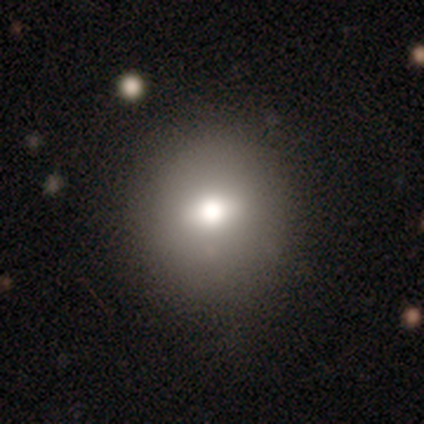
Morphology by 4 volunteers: Smooth or featured?
  - smooth: 75% *
  - star or artifact: 25%
  - featured or disk: 0%
How rounded?
  - round: 67% *
  - in between: 33%
  - cigar-shaped: 0%
Merging?
  - none: 100% *
  - minor disturbance: 0%
  - major disturbance: 0%
  - merger: 0%